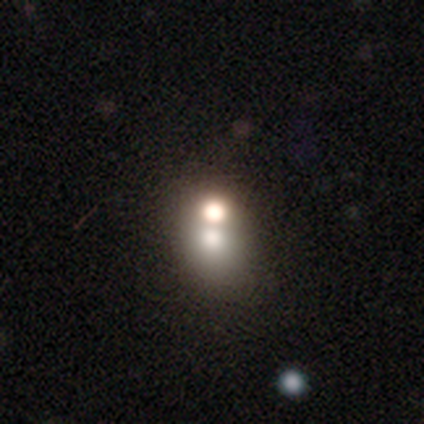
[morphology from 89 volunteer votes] Overall: smooth (53%; star or artifact 27%). How rounded: round (62%; in between 38%). Merging: merger (49%; none 40%).